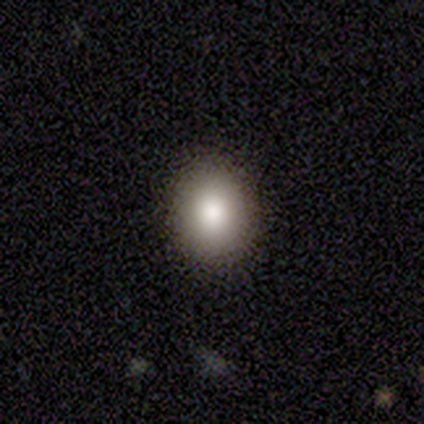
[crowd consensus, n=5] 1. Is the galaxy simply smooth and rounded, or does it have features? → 80% smooth, 20% star or artifact, 0% featured or disk.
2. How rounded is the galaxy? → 75% round, 25% in between, 0% cigar-shaped.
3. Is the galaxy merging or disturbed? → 100% none, 0% minor disturbance, 0% major disturbance, 0% merger.